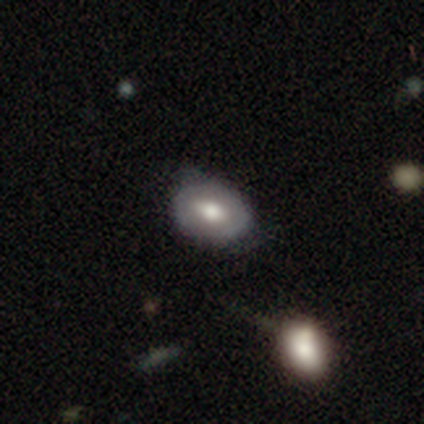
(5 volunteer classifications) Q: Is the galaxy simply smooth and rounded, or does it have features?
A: smooth — 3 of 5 (60%).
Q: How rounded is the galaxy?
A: round — 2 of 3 (67%).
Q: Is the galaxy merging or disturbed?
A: minor disturbance — 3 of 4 (75%).